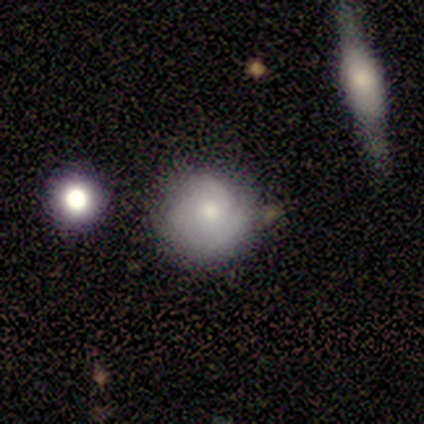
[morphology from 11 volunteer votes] A featured or disk galaxy (55%) with no bar (83%), 3 (50%) tight (50%) spiral arms (100%) and a moderate central bulge (83%). Merging: none (70%).